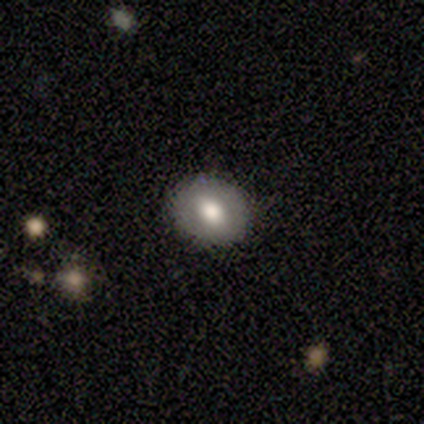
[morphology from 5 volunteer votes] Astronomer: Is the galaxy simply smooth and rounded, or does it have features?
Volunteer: smooth — 80%.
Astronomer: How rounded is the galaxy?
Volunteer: round — 100%.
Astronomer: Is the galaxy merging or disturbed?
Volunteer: none — 100%.